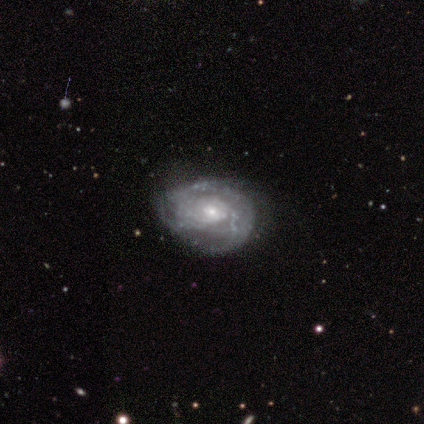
Smooth or featured? 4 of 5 (80%) said featured or disk. Edge-on disk? 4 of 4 (100%) said no. Bar? 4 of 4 (100%) said no. Spiral arms? 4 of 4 (100%) said yes. Spiral winding? 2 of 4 (50%, tied with medium) said tight. Spiral arm count? 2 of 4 (50%, tied with can't tell) said 3. Bulge size? 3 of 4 (75%) said small. Merging? 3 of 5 (60%) said none.